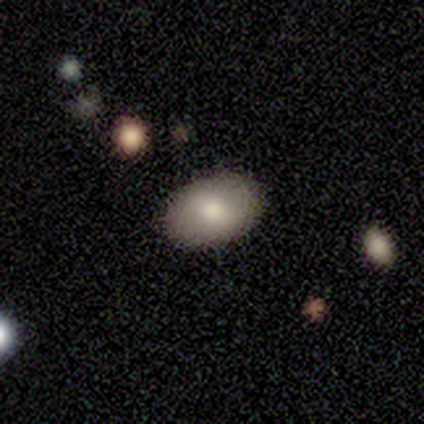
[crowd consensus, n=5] Smooth or featured? 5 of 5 (100%) said smooth. How rounded? 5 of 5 (100%) said in between. Merging? 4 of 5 (80%) said none.